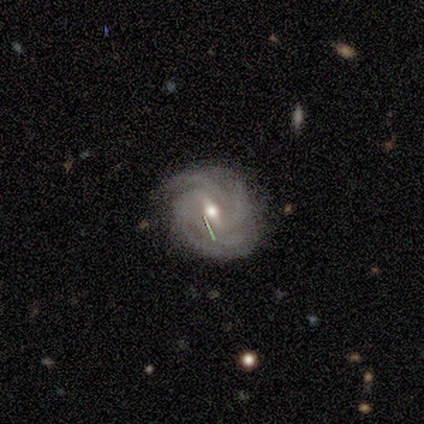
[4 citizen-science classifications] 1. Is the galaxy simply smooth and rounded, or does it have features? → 100% featured or disk, 0% smooth, 0% star or artifact.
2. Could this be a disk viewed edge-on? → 100% no, 0% yes.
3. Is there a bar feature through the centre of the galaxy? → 75% weak, 25% strong, 0% no.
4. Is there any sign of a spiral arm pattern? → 100% yes, 0% no.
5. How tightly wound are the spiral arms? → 50% tight (tied), 50% medium (tied), 0% loose.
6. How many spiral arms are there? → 75% 4, 25% 2, 0% 1, 0% 3, 0% more than 4, 0% can't tell.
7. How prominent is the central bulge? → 100% moderate, 0% dominant, 0% large, 0% small, 0% none.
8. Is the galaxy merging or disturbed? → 100% none, 0% minor disturbance, 0% major disturbance, 0% merger.